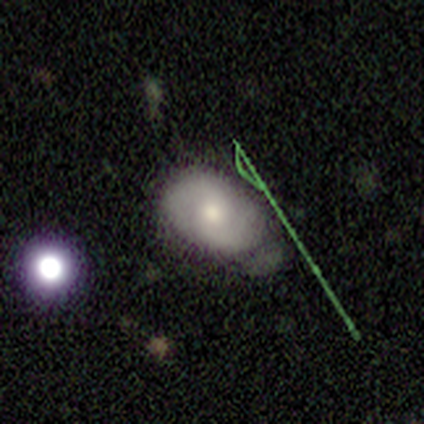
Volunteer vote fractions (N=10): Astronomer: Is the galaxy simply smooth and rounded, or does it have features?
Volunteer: featured or disk — 60% (runner-up: smooth, 40%).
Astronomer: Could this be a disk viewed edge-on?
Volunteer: no — 100%.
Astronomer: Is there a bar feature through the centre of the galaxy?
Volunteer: weak — 50%, tied with no at 50%.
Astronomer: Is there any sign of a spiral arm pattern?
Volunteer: yes — 83%.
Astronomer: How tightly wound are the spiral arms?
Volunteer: medium — 40%, tied with loose at 40%.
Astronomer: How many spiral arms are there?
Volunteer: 2 — 100%.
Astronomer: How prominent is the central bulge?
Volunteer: moderate — 100%.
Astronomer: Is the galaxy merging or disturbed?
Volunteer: none — 50% (runner-up: minor disturbance, 40%).